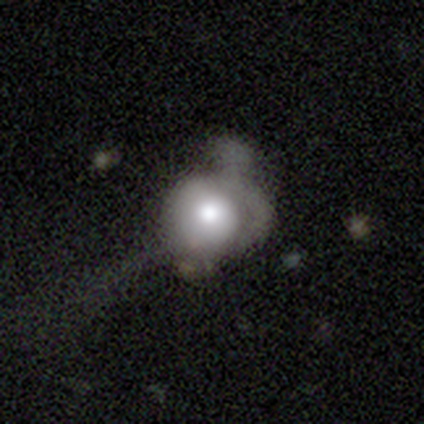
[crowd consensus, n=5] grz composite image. It shows a featured or disk galaxy (80%) with no bar (100%), no spiral arms (100%) and a moderate central bulge (75%). Merging: major disturbance (60%).